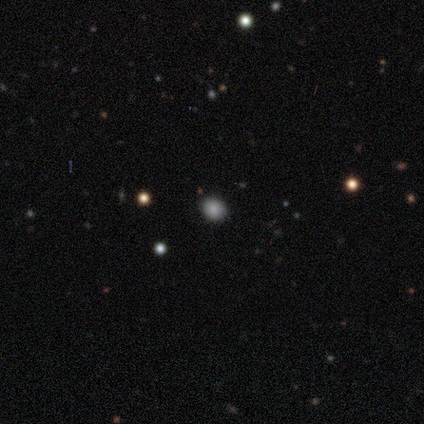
smooth 60%, star or artifact 40%, featured or disk 0%. Down the decision tree: how rounded — round (67%); merging — none (100%).